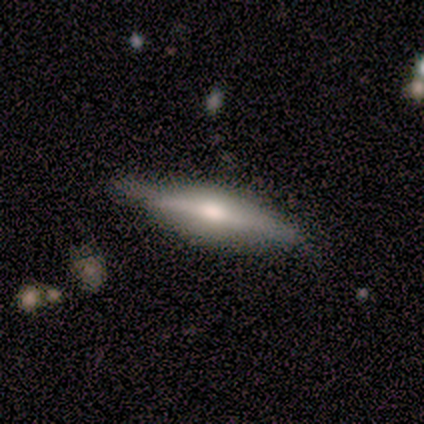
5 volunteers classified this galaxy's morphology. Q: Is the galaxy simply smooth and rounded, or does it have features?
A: featured or disk — 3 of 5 (60%).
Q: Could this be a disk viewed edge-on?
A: yes — 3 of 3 (100%).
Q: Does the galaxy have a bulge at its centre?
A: rounded — 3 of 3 (100%).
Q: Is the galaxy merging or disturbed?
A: none — 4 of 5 (80%).